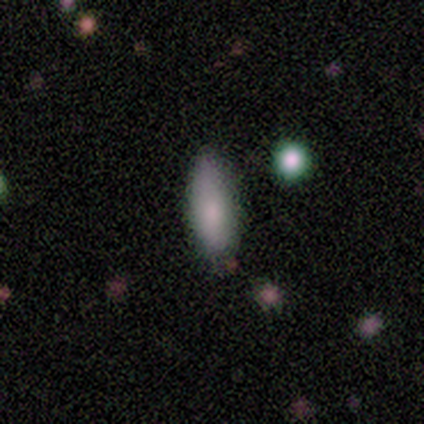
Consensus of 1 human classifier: Morphology: type=smooth (100%); roundness=in between (100%); merging=none (100%).